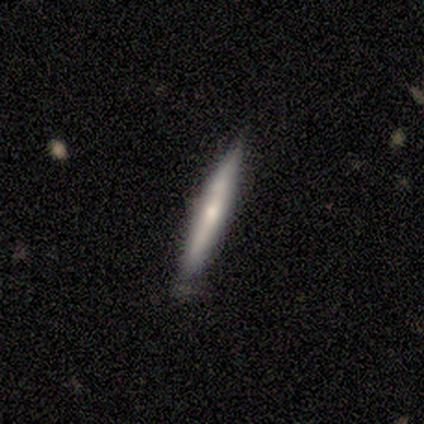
A featured or disk galaxy (60%) viewed edge-on (100%) with a rounded central bulge (100%).

Vote fractions:
- Smooth or featured? featured or disk: 60% / smooth: 40% / star or artifact: 0%
- Edge-on disk? yes: 100% / no: 0%
- Edge-on bulge? rounded: 100% / boxy: 0% / none: 0%
- Merging? none: 60% / minor disturbance: 40% / major disturbance: 0% / merger: 0%